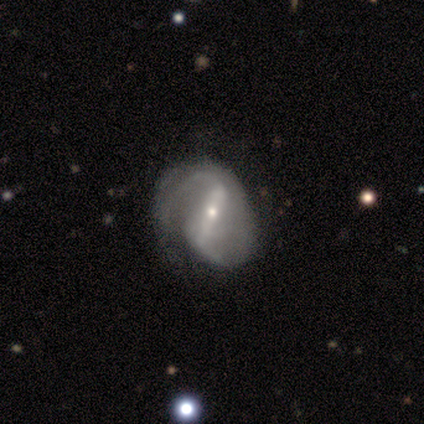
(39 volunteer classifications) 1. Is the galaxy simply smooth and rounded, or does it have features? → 85% featured or disk, 8% smooth, 8% star or artifact.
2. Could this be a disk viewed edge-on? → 100% no, 0% yes.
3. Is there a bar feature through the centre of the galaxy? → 85% strong, 9% weak, 6% no.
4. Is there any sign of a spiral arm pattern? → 94% yes, 6% no.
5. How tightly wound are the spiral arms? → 52% medium, 32% loose, 16% tight.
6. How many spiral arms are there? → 84% 2, 13% can't tell, 3% 1, 0% 3, 0% 4, 0% more than 4.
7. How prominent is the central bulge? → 64% small, 33% moderate, 3% large, 0% dominant, 0% none.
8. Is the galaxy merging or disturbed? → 28% minor disturbance, 22% none, 14% major disturbance, 0% merger.